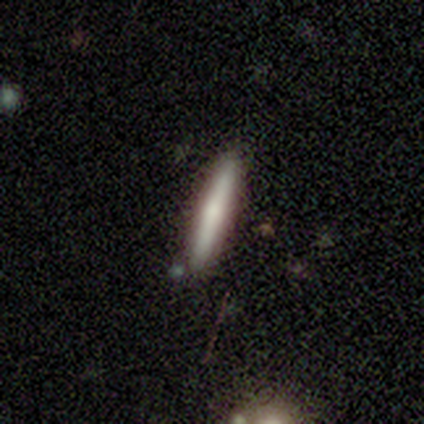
A smooth galaxy with no disk features (60%) that is cigar-shaped (100%).

Vote fractions:
- Smooth or featured? smooth: 60% / featured or disk: 40% / star or artifact: 0%
- How rounded? cigar-shaped: 100% / round: 0% / in between: 0%
- Merging? none: 100% / minor disturbance: 0% / major disturbance: 0% / merger: 0%